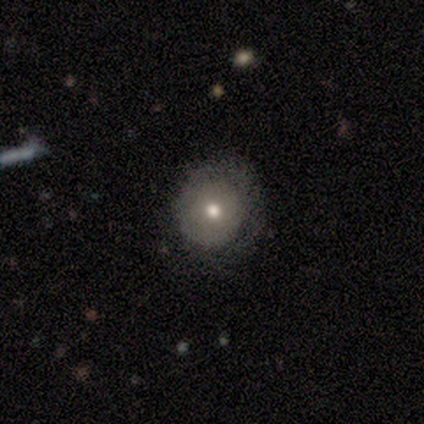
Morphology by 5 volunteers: Smooth or featured? smooth (60%)
How rounded? round (67%)
Merging? none (75%)